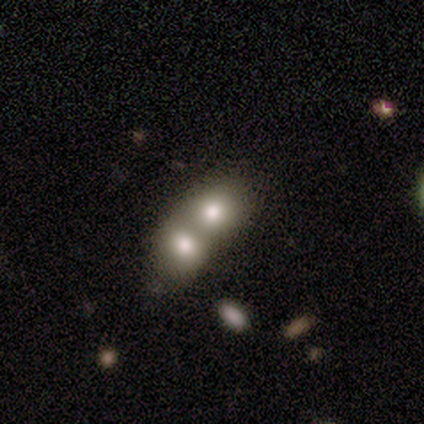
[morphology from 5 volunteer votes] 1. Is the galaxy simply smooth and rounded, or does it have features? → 80% smooth, 20% featured or disk, 0% star or artifact.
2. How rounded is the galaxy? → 50% round (tied), 50% in between (tied), 0% cigar-shaped.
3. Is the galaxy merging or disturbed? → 80% merger, 20% none, 0% minor disturbance, 0% major disturbance.